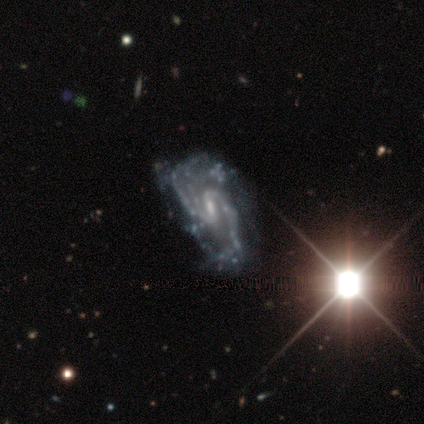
A featured or disk galaxy (100%) with a weak bar (80%), 2 (100%) medium (67%) spiral arms (60%) and a small central bulge (80%). Merging: none (40%, tied with major disturbance).